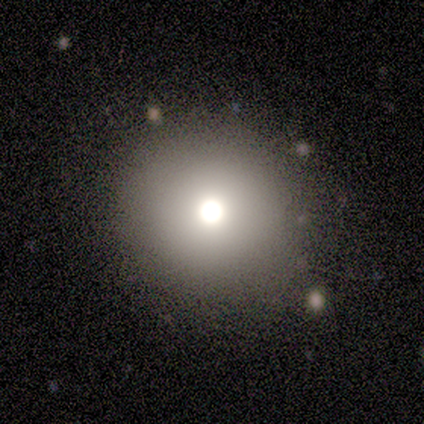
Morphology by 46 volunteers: Overall: smooth (67%). How rounded: round (94%). Merging: none (93%).